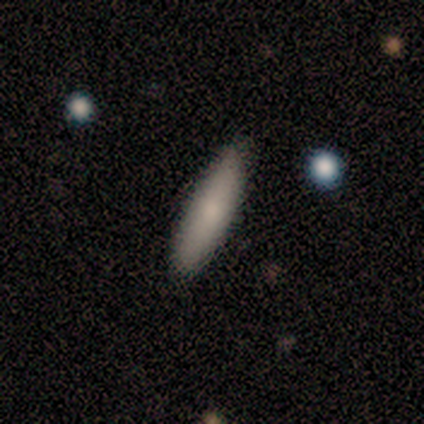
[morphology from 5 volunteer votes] smooth_or_featured: smooth (p=1.00)
how_rounded: cigar-shaped (p=0.80) [alt: in between p=0.20]
merging: none (p=0.60) [alt: minor disturbance p=0.40]